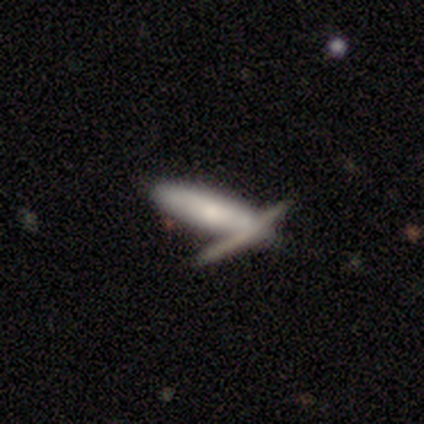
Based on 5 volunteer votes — Smooth or featured? 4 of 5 (80%) said smooth. How rounded? 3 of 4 (75%) said cigar-shaped. Merging? 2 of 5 (40%, tied with merger) said none.